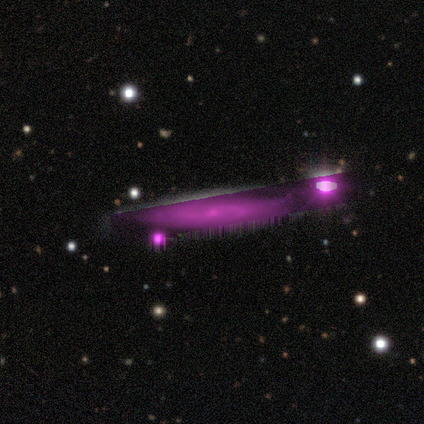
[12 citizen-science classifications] This is possibly a featured or disk galaxy (50%). It is possibly viewed edge-on (50%, tied with no). Edge-on bulge: likely rounded (67%). Merging: possibly none (57%).